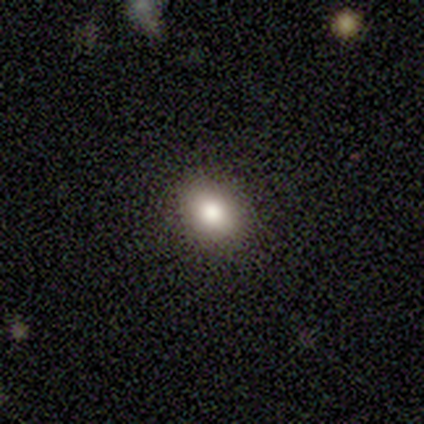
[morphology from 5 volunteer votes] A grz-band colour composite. It shows a star or artifact, not a galaxy (60%).